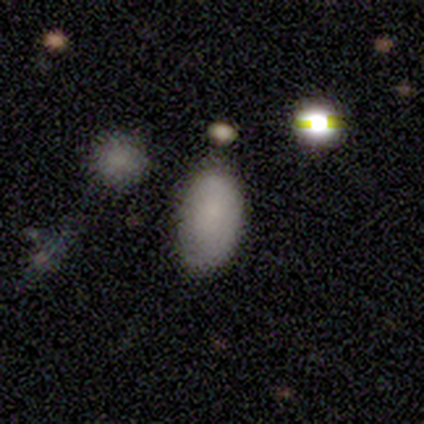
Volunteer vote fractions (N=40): smooth_or_featured: smooth (p=0.70) [alt: featured or disk p=0.15]
how_rounded: in between (p=0.93) [alt: round p=0.07]
merging: none (p=0.68) [alt: minor disturbance p=0.21]